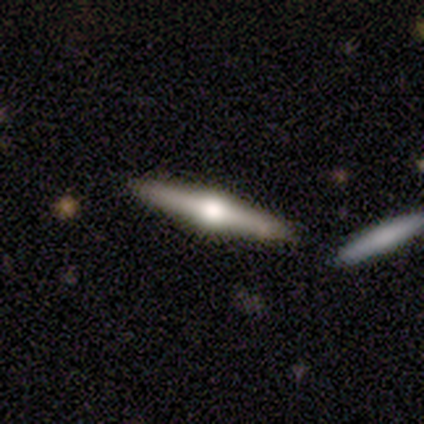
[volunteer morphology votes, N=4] A featured or disk galaxy (75%) viewed edge-on (100%) with a rounded central bulge (100%). Merging: none (75%).